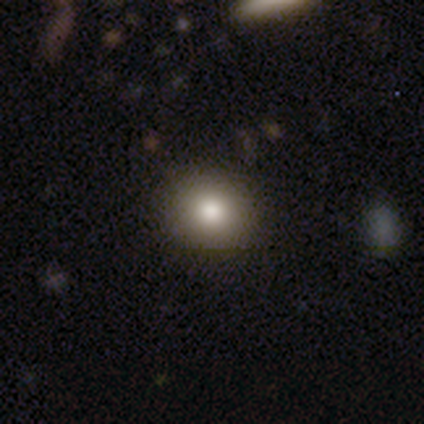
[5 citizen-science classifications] Smooth or featured?
  - smooth: 80% *
  - star or artifact: 20%
  - featured or disk: 0%
How rounded?
  - round: 100% *
  - in between: 0%
  - cigar-shaped: 0%
Merging?
  - none: 75% *
  - minor disturbance: 25%
  - major disturbance: 0%
  - merger: 0%